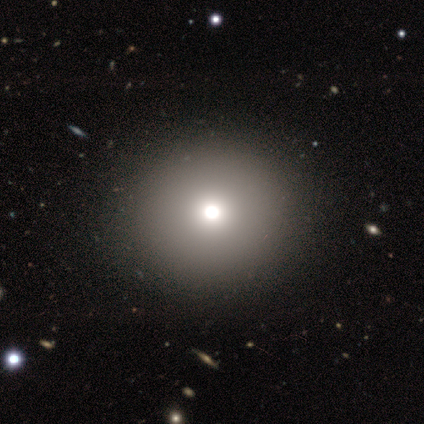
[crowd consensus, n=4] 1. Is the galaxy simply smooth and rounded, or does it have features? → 50% smooth, 25% featured or disk, 25% star or artifact.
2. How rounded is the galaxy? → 100% round, 0% in between, 0% cigar-shaped.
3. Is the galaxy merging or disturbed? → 100% none, 0% minor disturbance, 0% major disturbance, 0% merger.